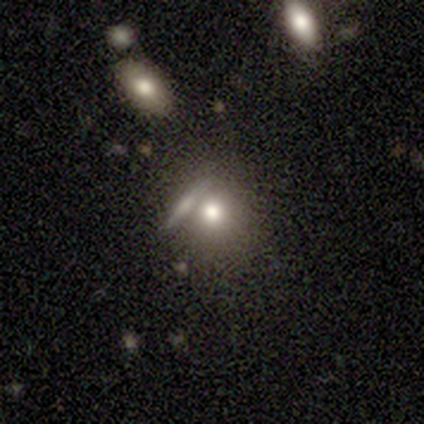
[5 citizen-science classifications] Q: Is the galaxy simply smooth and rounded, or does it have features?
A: smooth — 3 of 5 (60%).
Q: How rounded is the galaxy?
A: round — 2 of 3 (67%).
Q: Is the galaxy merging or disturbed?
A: none — 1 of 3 (33%, tied with major disturbance and merger).